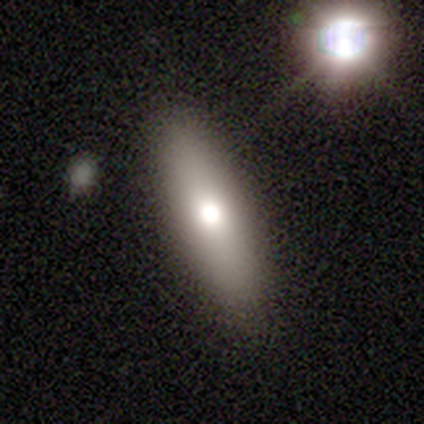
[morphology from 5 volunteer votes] A smooth galaxy with no disk features (80%) that is in between round and cigar-shaped (75%). Merging: none (100%).